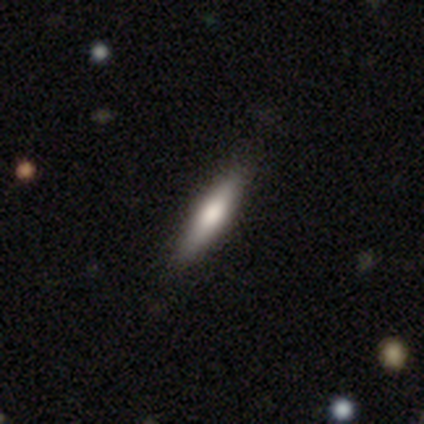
Volunteers were most divided on "smooth or featured": smooth: 60%, featured or disk: 40%, star or artifact: 0%. More confident: how rounded — cigar-shaped (100%); merging — none (100%).